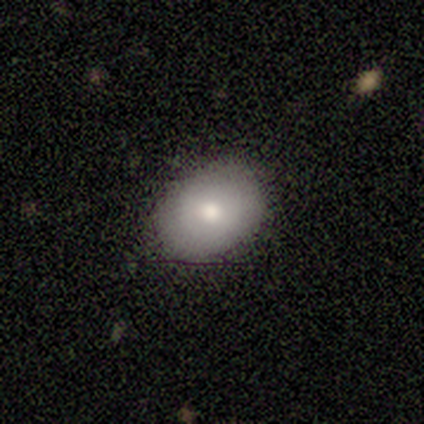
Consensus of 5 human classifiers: A smooth galaxy with no disk features (80%) that is round (50%, tied with in between).

Vote fractions:
- Smooth or featured? smooth: 80% / featured or disk: 20% / star or artifact: 0%
- How rounded? round: 50% (tied) / in between: 50% (tied) / cigar-shaped: 0%
- Merging? none: 100% / minor disturbance: 0% / major disturbance: 0% / merger: 0%